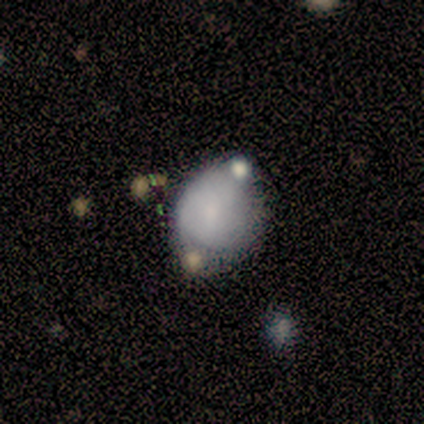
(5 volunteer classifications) smooth_or_featured: smooth (p=0.60) [alt: featured or disk p=0.40]
how_rounded: in between (p=0.67) [alt: round p=0.33]
merging: minor disturbance (p=0.60) [alt: none p=0.40]